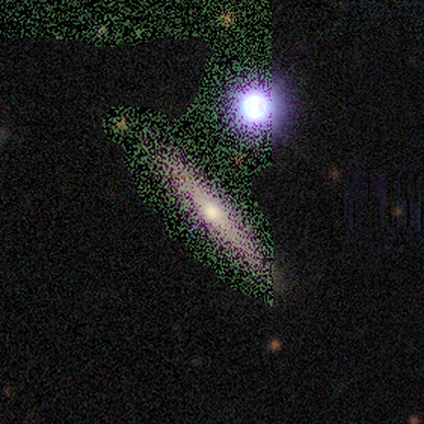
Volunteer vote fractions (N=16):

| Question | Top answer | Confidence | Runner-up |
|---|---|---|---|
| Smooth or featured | star or artifact | 56% | featured or disk (38%) |